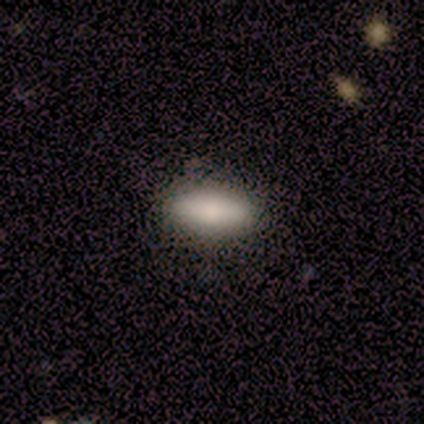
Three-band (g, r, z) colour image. It shows a smooth galaxy with no disk features (80%) that is in between round and cigar-shaped (100%). Merging: none (100%).